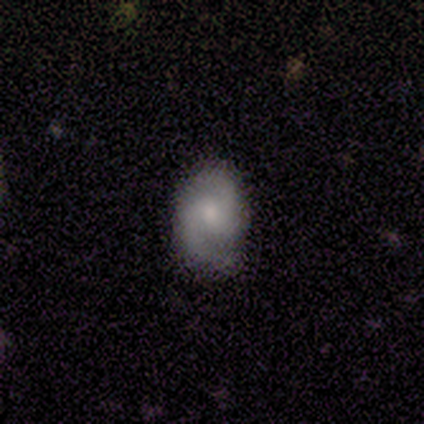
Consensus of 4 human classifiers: Volunteers were most divided on "spiral winding": medium: 67%, loose: 33%, tight: 0%. More confident: edge-on disk — no (100%); bar — no (100%); spiral arms — yes (100%); merging — none (100%); smooth or featured — featured or disk (75%); spiral arm count — 2 (67%); bulge size — moderate (67%).